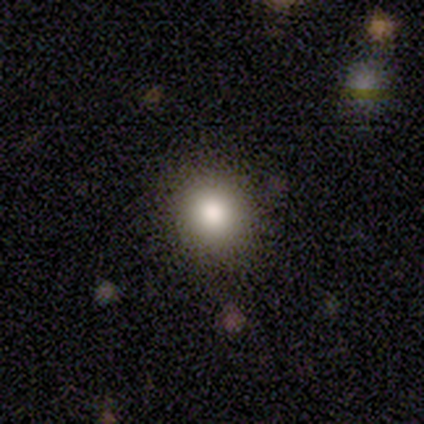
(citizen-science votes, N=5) A smooth galaxy with no disk features (80%) that is round (75%).

Vote fractions:
- Smooth or featured? smooth: 80% / star or artifact: 20% / featured or disk: 0%
- How rounded? round: 75% / cigar-shaped: 25% / in between: 0%
- Merging? none: 75% / minor disturbance: 25% / major disturbance: 0% / merger: 0%